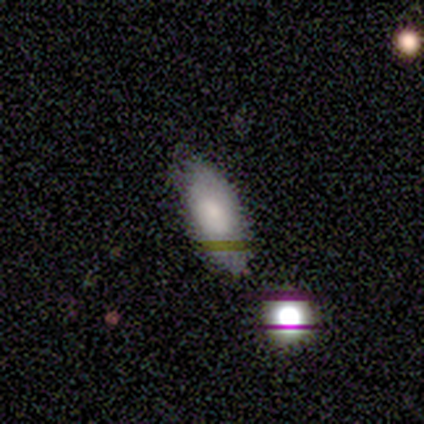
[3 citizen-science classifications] This appears to be a smooth galaxy with no disk features (67%) that is in between round and cigar-shaped (100%). Merging: none (100%).